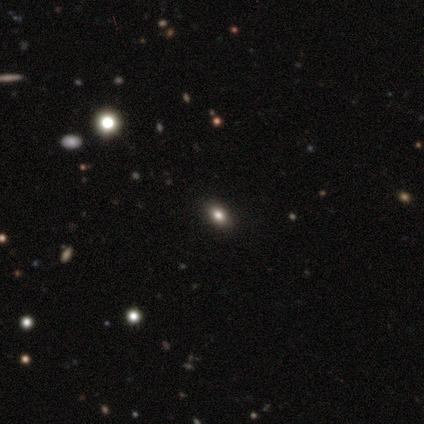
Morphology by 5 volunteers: Smooth or featured?
  - smooth: 80% *
  - star or artifact: 20%
  - featured or disk: 0%
How rounded?
  - in between: 100% *
  - round: 0%
  - cigar-shaped: 0%
Merging?
  - none: 100% *
  - minor disturbance: 0%
  - major disturbance: 0%
  - merger: 0%